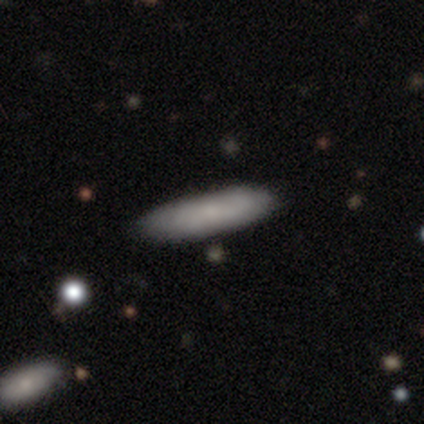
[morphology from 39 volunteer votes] Smooth or featured?
  - smooth: 77% *
  - featured or disk: 23%
  - star or artifact: 0%
How rounded?
  - in between: 53% *
  - cigar-shaped: 47%
  - round: 0%
Merging?
  - none: 59% *
  - merger: 10%
  - minor disturbance: 5%
  - major disturbance: 3%